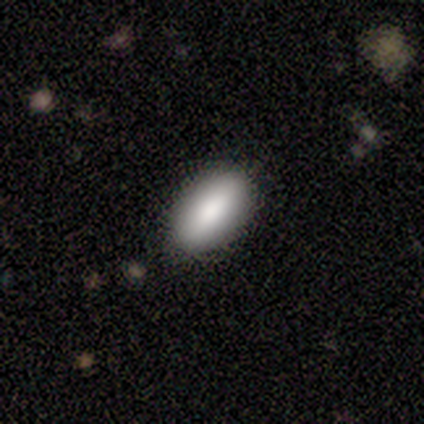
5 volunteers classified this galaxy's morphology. A smooth galaxy with no disk features (60%) that is in between round and cigar-shaped (100%). Merging: none (80%).